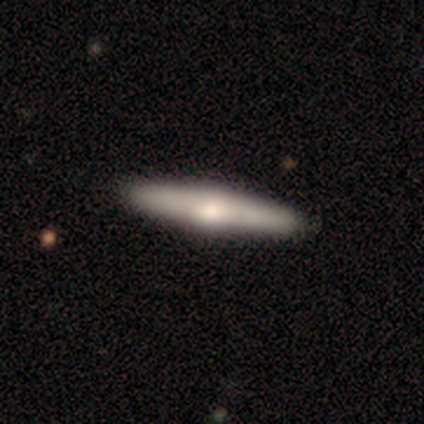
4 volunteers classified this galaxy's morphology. smooth 50% (tied), featured or disk 50% (tied), star or artifact 0%. Down the decision tree: how rounded — cigar-shaped (100%); merging — none (100%).